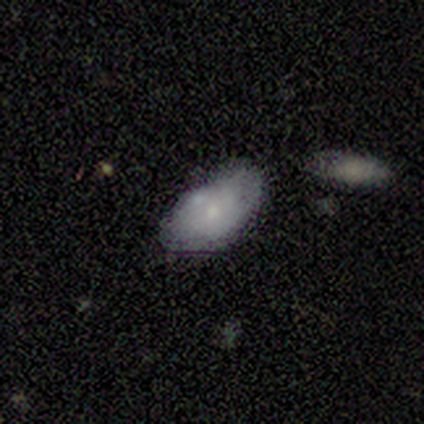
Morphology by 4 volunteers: Smooth or featured? smooth (50%, tied with featured or disk)
How rounded? in between (100%)
Merging? none (25%, tied with minor disturbance, major disturbance and merger)